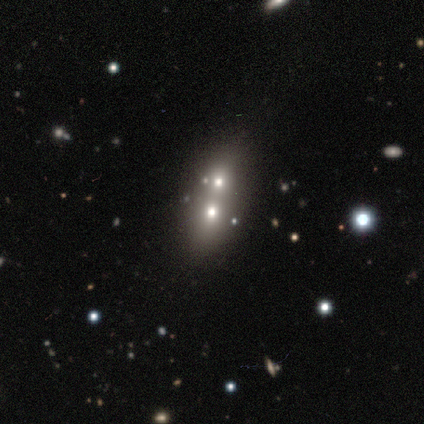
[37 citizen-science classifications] Volunteers were most divided on "how rounded": in between: 59%, round: 33%, cigar-shaped: 7%. More confident: merging — merger (76%); smooth or featured — smooth (73%).